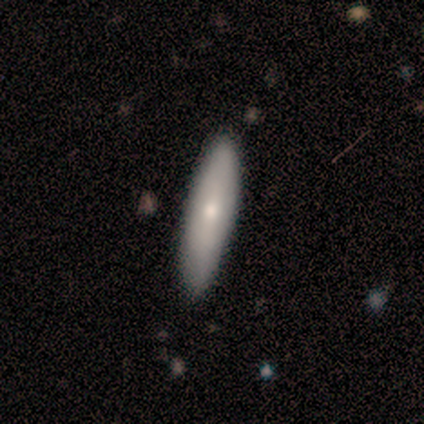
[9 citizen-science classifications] Q: Smooth or featured?
A: smooth (89%); runner-up: featured or disk (11%)
Q: How rounded?
A: cigar-shaped (88%); runner-up: in between (12%)
Q: Merging?
A: none (89%); runner-up: minor disturbance (11%)